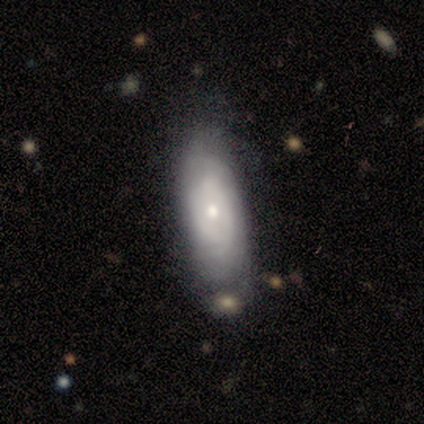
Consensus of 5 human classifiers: This appears to be a featured or disk galaxy (80%) with no bar (100%), tight (67%) spiral arms (75%) and a small central bulge (75%). Merging: none (100%).